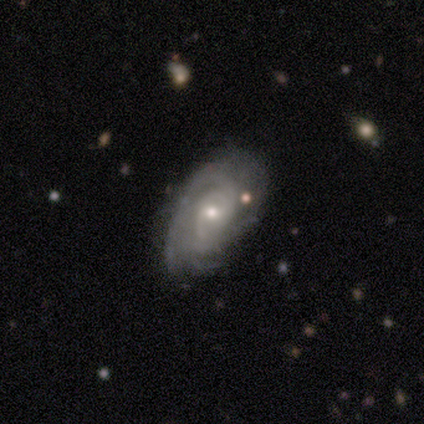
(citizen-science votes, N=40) Volunteers were most divided on "bulge size": moderate: 52%, small: 48%, dominant: 0%, large: 0%, none: 0%. Remaining: edge-on disk — no (97%); spiral arms — yes (97%); smooth or featured — featured or disk (85%); bar — no (67%); merging — none (66%); spiral winding — tight (62%); spiral arm count — can't tell (38%).